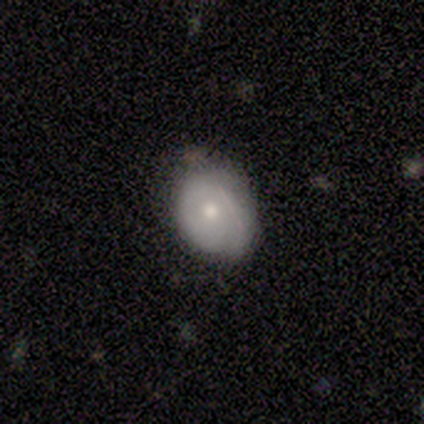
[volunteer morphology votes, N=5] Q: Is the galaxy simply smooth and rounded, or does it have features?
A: smooth — 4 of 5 (80%).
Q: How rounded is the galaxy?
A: round — 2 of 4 (50%, tied with in between).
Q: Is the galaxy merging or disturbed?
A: none — 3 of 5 (60%).